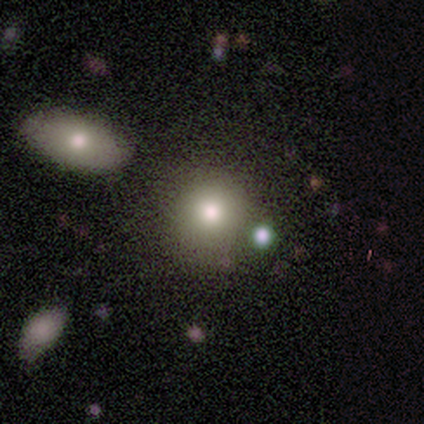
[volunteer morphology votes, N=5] smooth_or_featured: smooth (p=0.80) [alt: featured or disk p=0.20]
how_rounded: round (p=1.00)
merging: none (p=1.00)